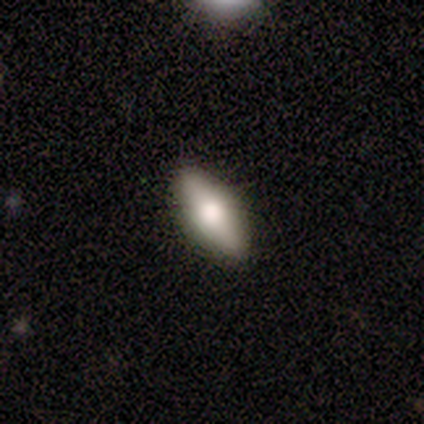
smooth 80%, featured or disk 20%, star or artifact 0%. Down the decision tree: how rounded — in between (100%); merging — none (100%).